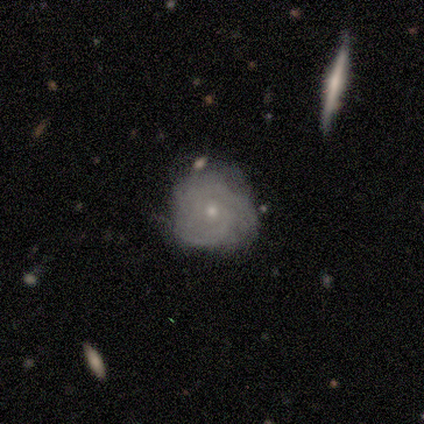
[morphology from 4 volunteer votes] Volunteers were most divided on "bar": no: 67%, weak: 33%, strong: 0%. More confident: edge-on disk — no (100%); spiral arms — yes (100%); smooth or featured — featured or disk (75%); merging — none (75%); spiral winding — tight (67%); spiral arm count — can't tell (67%); bulge size — moderate (67%).